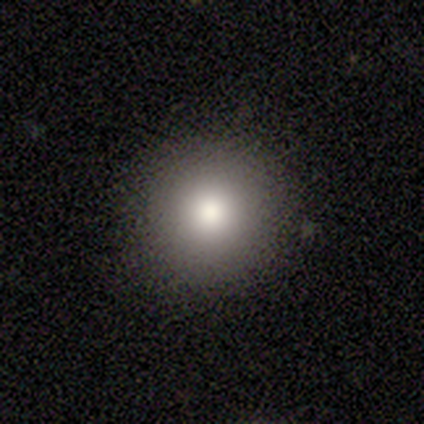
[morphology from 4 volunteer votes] A smooth galaxy with no disk features (75%) that is round (100%).

Vote fractions:
- Smooth or featured? smooth: 75% / featured or disk: 25% / star or artifact: 0%
- How rounded? round: 100% / in between: 0% / cigar-shaped: 0%
- Merging? none: 100% / minor disturbance: 0% / major disturbance: 0% / merger: 0%